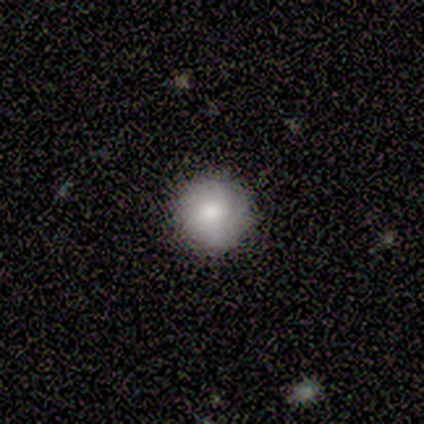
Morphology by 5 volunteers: Volunteers were most divided on "smooth or featured": smooth: 80%, featured or disk: 20%, star or artifact: 0%. More confident: how rounded — round (100%); merging — none (100%).